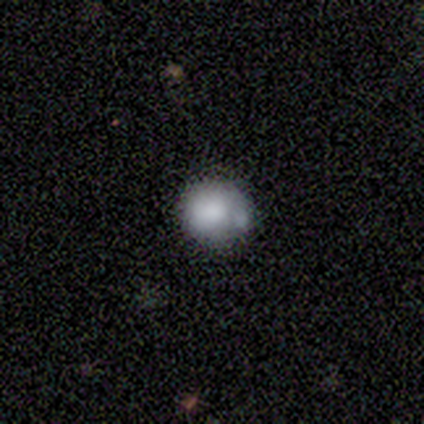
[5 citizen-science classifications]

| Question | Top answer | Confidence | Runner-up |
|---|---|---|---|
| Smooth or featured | smooth | 100% | — |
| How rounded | round | 100% | — |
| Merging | minor disturbance | 60% | none (40%) |